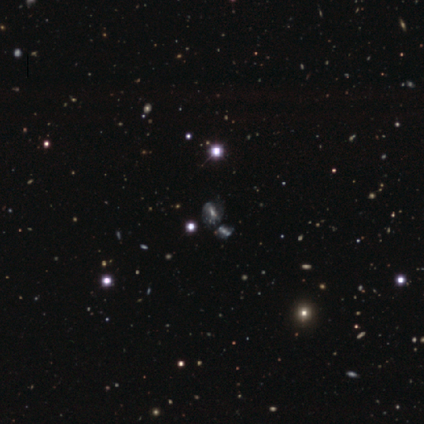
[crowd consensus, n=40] Overall: featured or disk (50%; star or artifact 42%). Edge-on disk: no (95%). Bar: no (42%; weak 37%). Spiral arms: yes (79%). Spiral arm count: can't tell (87%). Spiral winding: tight (53%; medium 40%). Bulge size: moderate (53%; small 26%). Merging: none (48%; merger 26%).